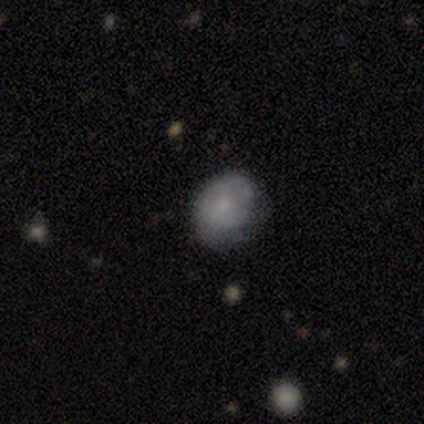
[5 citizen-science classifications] Smooth or featured? 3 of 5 (60%) said smooth. How rounded? 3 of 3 (100%) said in between. Merging? 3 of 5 (60%) said none.